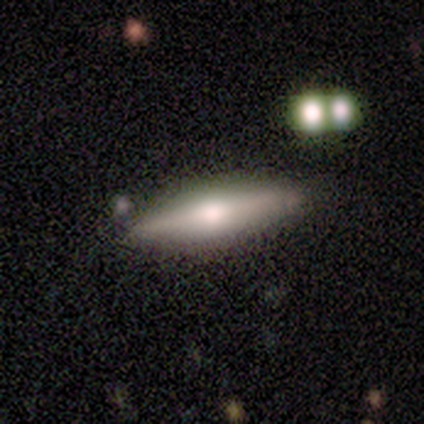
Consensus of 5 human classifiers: This appears to be a smooth galaxy with no disk features (60%) that is cigar-shaped (100%). Merging: none (100%).